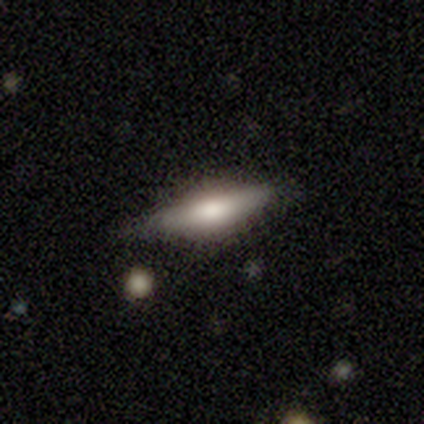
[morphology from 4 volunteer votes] type=smooth (50%, tied with featured or disk); roundness=in between (100%); merging=none (75%).